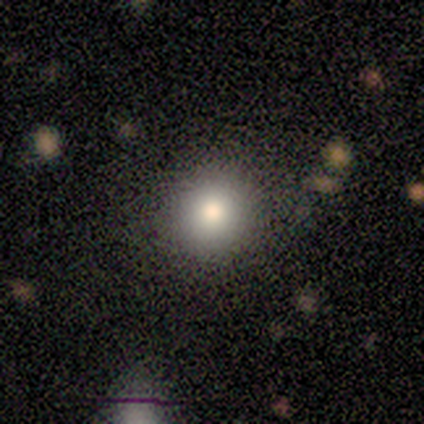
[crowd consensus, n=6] Morphology: type=smooth (83%); roundness=round (100%); merging=none (100%).